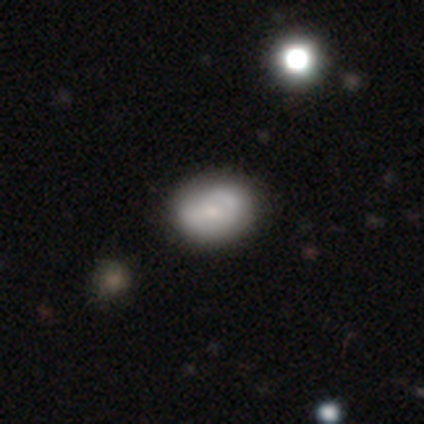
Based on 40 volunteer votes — Smooth or featured: smooth — 65% (featured or disk — 28%)
How rounded: in between — 77% (round — 23%)
Merging: none — 57% (minor disturbance — 8%)